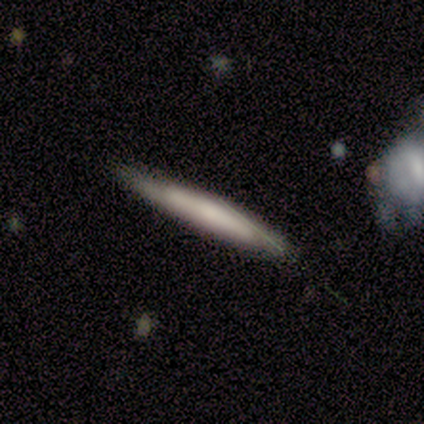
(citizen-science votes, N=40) featured or disk 50%, smooth 45%, star or artifact 5%. Down the decision tree: edge-on disk — yes (90%); edge-on bulge — none (67%); merging — none (76%).